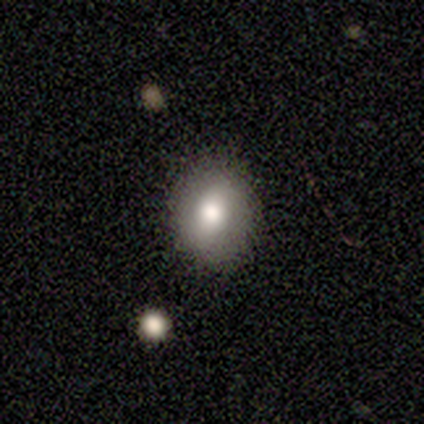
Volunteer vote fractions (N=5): Overall: smooth (60%; featured or disk 40%). How rounded: round (67%; in between 33%). Merging: none (100%).